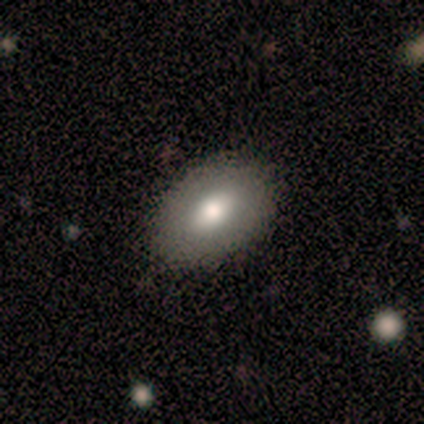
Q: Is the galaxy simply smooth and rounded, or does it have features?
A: smooth — 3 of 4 (75%).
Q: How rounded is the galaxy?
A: in between — 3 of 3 (100%).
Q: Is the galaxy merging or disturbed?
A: none — 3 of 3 (100%).